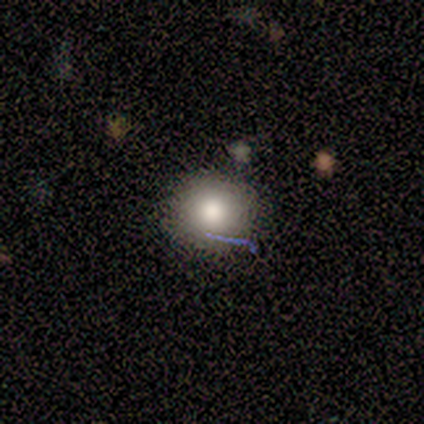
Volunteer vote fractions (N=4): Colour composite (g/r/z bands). It shows a smooth galaxy with no disk features (75%) that is round (100%). Merging: none (75%).